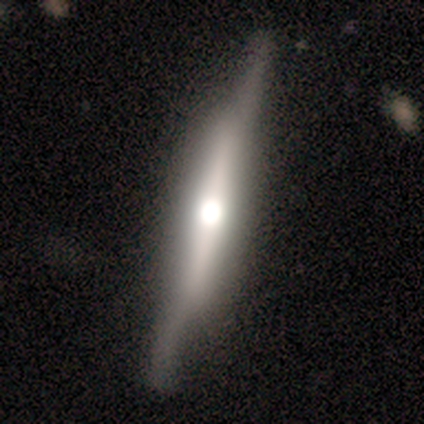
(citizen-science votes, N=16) Smooth or featured? 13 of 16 (81%) said featured or disk. Edge-on disk? 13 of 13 (100%) said yes. Edge-on bulge? 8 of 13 (62%) said rounded. Merging? 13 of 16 (81%) said none.